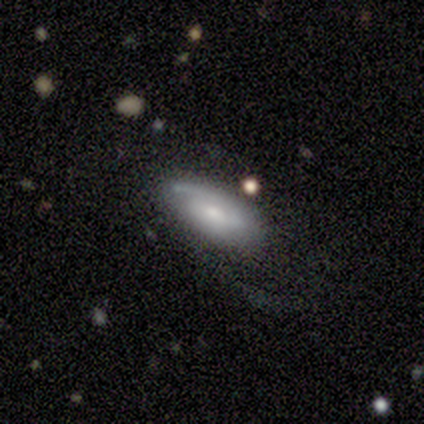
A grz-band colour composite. It shows a smooth galaxy with no disk features (100%) that is in between round and cigar-shaped (100%). Merging: minor disturbance (100%).